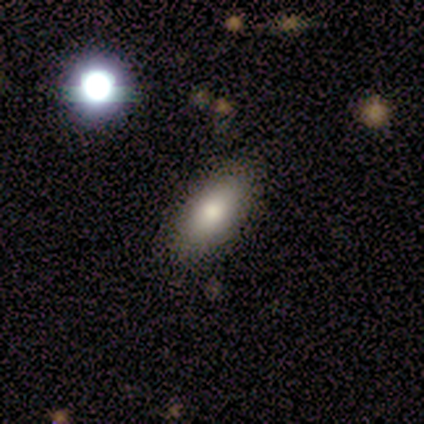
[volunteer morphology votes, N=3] type=featured or disk (67%); edge-on=no (100%); bar=strong (50%, tied with no); spiral arms=no (100%); bulge=dominant (50%, tied with moderate); merging=none (67%).